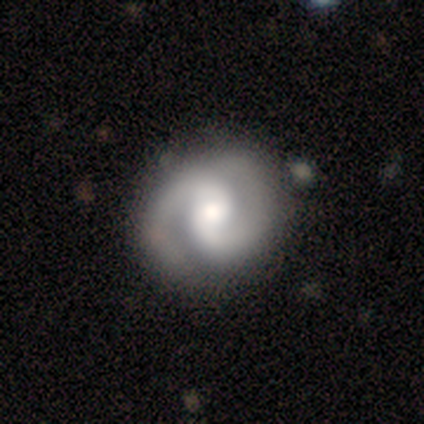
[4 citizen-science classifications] This is likely a featured or disk galaxy (75%). It is clearly not viewed edge-on (100%). Bar: likely weak (67%). Spiral arm pattern: clearly yes (100%). Spiral arm count: clearly 2 (100%). Spiral winding: likely medium (67%). Central bulge: likely small (67%). Merging: likely none (75%).